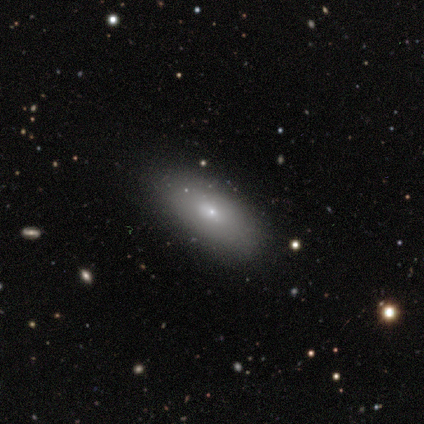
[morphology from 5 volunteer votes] Smooth or featured? 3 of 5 (60%) said smooth. How rounded? 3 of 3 (100%) said in between. Merging? 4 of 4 (100%) said none.